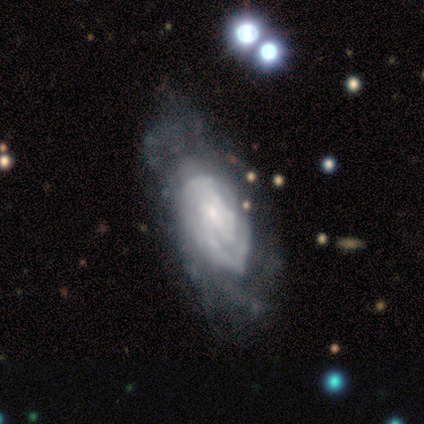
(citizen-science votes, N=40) Morphology: type=featured or disk (82%); edge-on=no (97%); bar=no (53%); spiral arms=yes (91%); winding=tight (69%); arm count=can't tell (66%); bulge=small (75%); merging=none (41%).